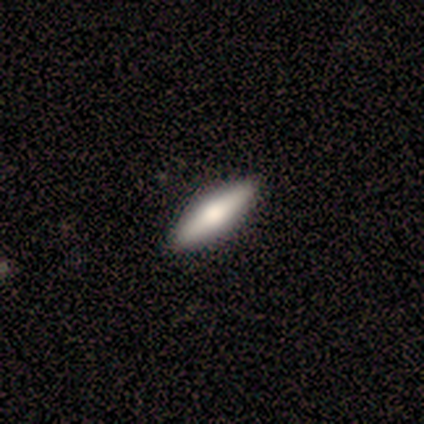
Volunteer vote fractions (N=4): This is possibly a smooth galaxy (50%, tied with featured or disk). How rounded: possibly in between (50%, tied with cigar-shaped). Merging: likely none (75%).